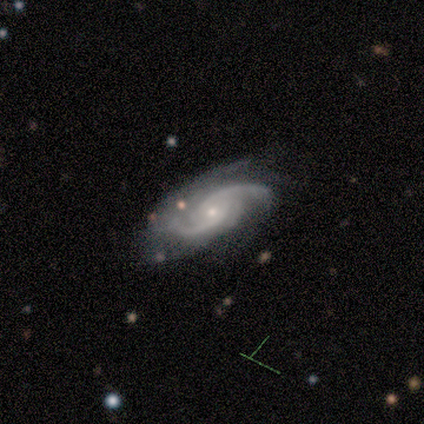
Q: Smooth or featured?
A: featured or disk (60%); runner-up: smooth (40%)
Q: Edge-on disk?
A: no (67%); runner-up: yes (33%)
Q: Bar?
A: no (100%)
Q: Spiral arms?
A: yes (100%)
Q: Spiral winding?
A: tight (50%); tied with: medium (50%)
Q: Spiral arm count?
A: 2 (100%)
Q: Bulge size?
A: small (100%)
Q: Merging?
A: none (80%); runner-up: minor disturbance (20%)